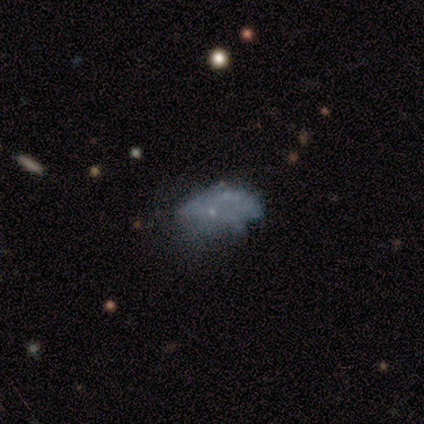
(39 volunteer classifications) Smooth or featured: featured or disk — 46% (smooth — 31%)
Edge-on disk: no — 94% (yes — 6%)
Bar: no — 100%
Spiral arms: no — 100%
Bulge size: none — 65% (small — 35%)
Merging: none — 33% (tied with major disturbance — 33%)